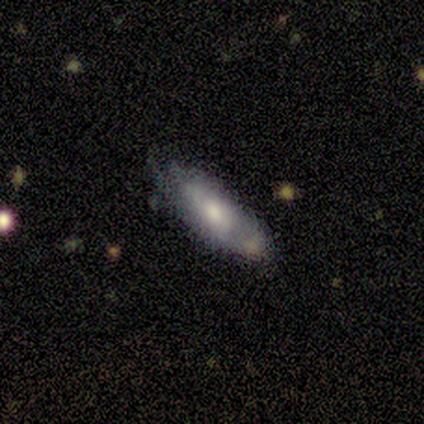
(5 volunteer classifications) Smooth or featured? 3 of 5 (60%) said featured or disk. Edge-on disk? 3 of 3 (100%) said no. Bar? 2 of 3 (67%) said no. Spiral arms? 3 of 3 (100%) said yes. Spiral winding? 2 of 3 (67%) said tight. Spiral arm count? 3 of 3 (100%) said can't tell. Bulge size? 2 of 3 (67%) said moderate. Merging? 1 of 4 (25%, tied with minor disturbance, major disturbance and merger) said none.